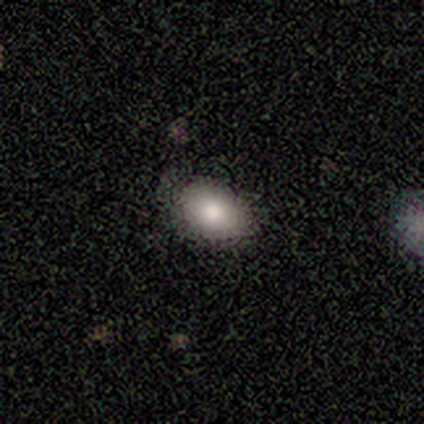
Q: Smooth or featured?
A: smooth (60%); runner-up: featured or disk (20%)
Q: How rounded?
A: in between (67%); runner-up: round (33%)
Q: Merging?
A: none (100%)